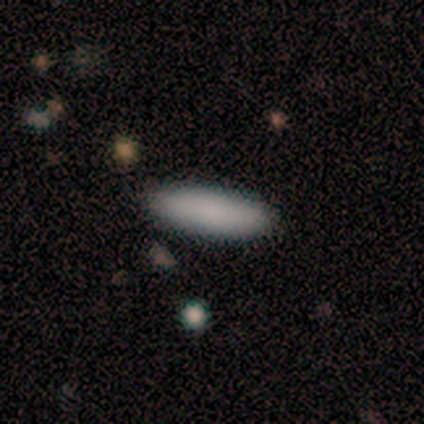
Smooth or featured? 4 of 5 (80%) said smooth. How rounded? 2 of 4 (50%, tied with cigar-shaped) said in between. Merging? 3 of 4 (75%) said none.